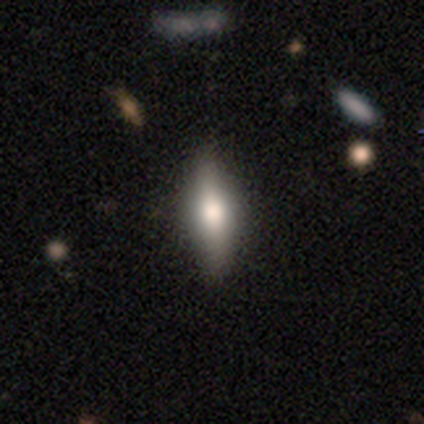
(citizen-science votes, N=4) Morphology: type=smooth (100%); roundness=cigar-shaped (100%); merging=none (100%).